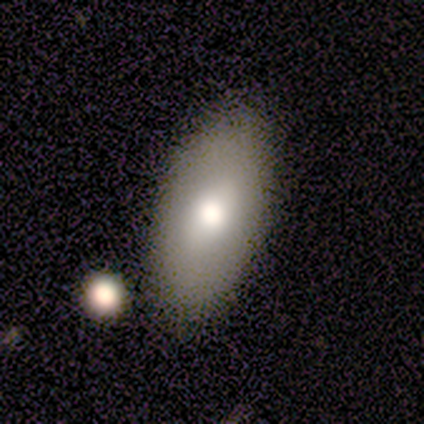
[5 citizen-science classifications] smooth_or_featured: smooth (p=0.60) [alt: featured or disk p=0.20]
how_rounded: in between (p=1.00)
merging: none (p=0.75) [alt: minor disturbance p=0.25]